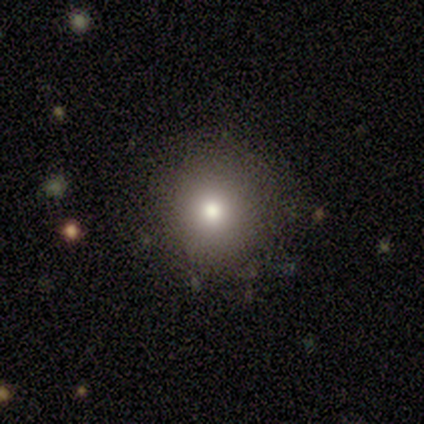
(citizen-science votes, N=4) Overall: smooth (100%). How rounded: round (75%). Merging: none (100%).